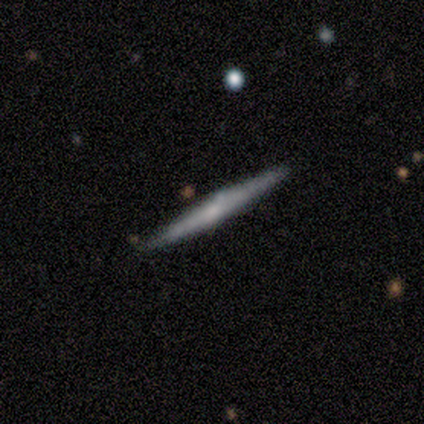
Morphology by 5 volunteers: Overall: smooth (60%; featured or disk 40%). How rounded: cigar-shaped (100%). Merging: none (80%).